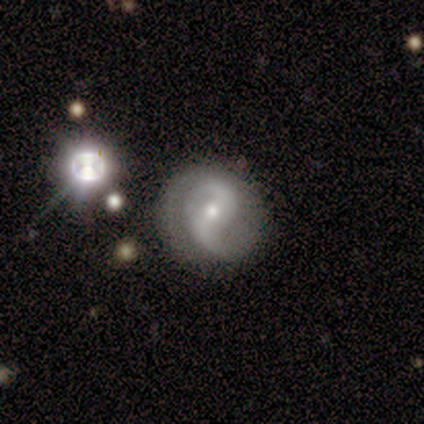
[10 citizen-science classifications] Overall: featured or disk (80%). Edge-on disk: no (100%). Bar: no (75%). Spiral arms: yes (100%). Spiral arm count: 2 (100%). Spiral winding: medium (50%; loose 38%). Bulge size: small (62%; moderate 38%). Merging: none (67%).